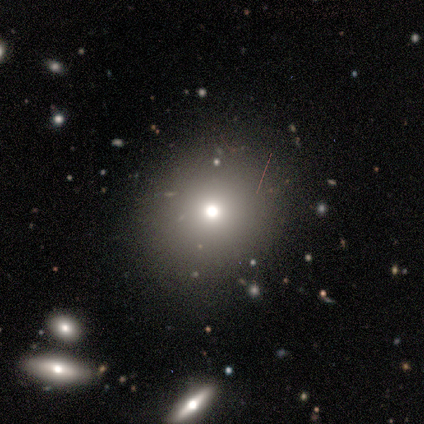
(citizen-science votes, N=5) smooth 60%, featured or disk 20%, star or artifact 20%. Down the decision tree: how rounded — round (100%); merging — none (100%).